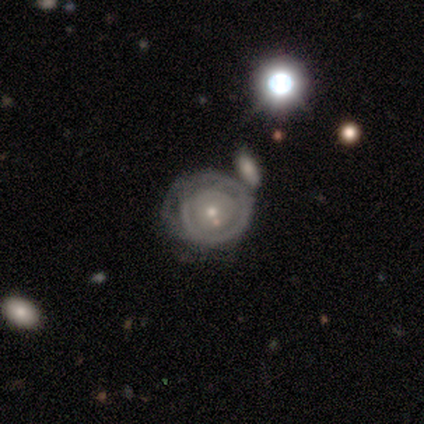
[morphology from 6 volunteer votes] featured or disk 100%, smooth 0%, star or artifact 0%. Down the decision tree: edge-on disk — no (100%); bar — no (83%); spiral arms — yes (67%); spiral arm count — 1 (50%); spiral winding — tight (100%); bulge size — small (100%); merging — none (50%).